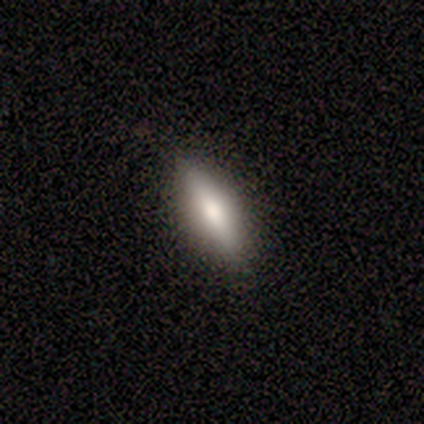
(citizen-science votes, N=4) Overall: featured or disk (50%; smooth 25%). Edge-on disk: yes (100%). Edge-on bulge: rounded (100%). Merging: none (67%; minor disturbance 33%).